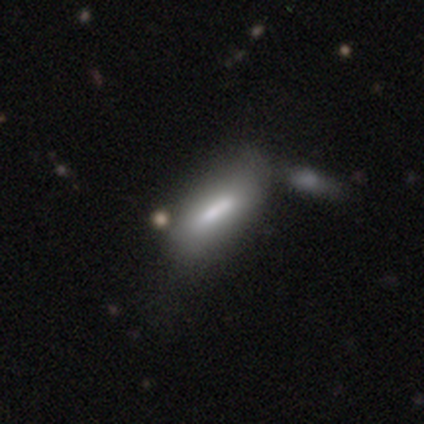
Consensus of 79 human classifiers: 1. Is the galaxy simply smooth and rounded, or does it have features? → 70% smooth, 27% featured or disk, 4% star or artifact.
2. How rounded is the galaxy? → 62% in between, 36% cigar-shaped, 2% round.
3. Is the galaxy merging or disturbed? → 29% merger, 22% none, 18% minor disturbance, 3% major disturbance.